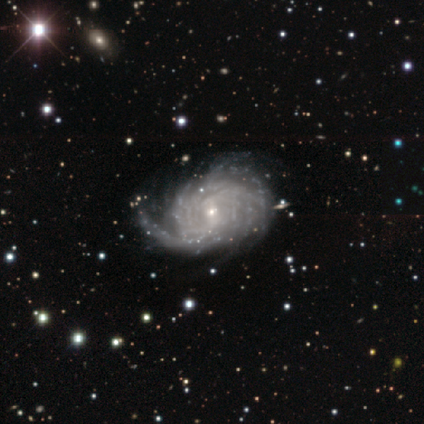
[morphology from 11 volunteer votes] Overall: featured or disk (91%). Edge-on disk: no (100%). Bar: no (70%; weak 30%). Spiral arms: yes (100%). Spiral arm count: more than 4 (50%, tied with can't tell). Spiral winding: tight (70%). Bulge size: small (90%). Merging: none (45%; minor disturbance 27%).